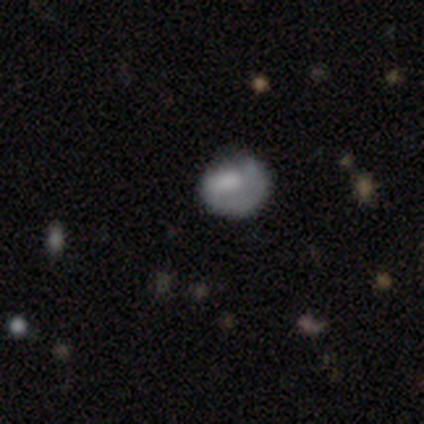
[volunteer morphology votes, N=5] This appears to be a smooth galaxy with no disk features (60%) that is in between round and cigar-shaped (67%). Merging: none (50%, tied with minor disturbance).